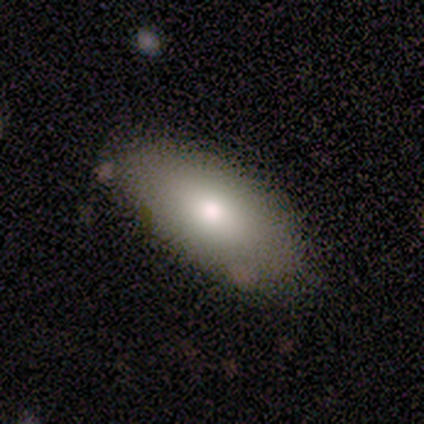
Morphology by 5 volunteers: smooth-or-featured: smooth: 100% | featured or disk: 0% | star or artifact: 0%
  how-rounded: in between: 100% | round: 0% | cigar-shaped: 0%
  merging: none: 100% | minor disturbance: 0% | major disturbance: 0% | merger: 0%